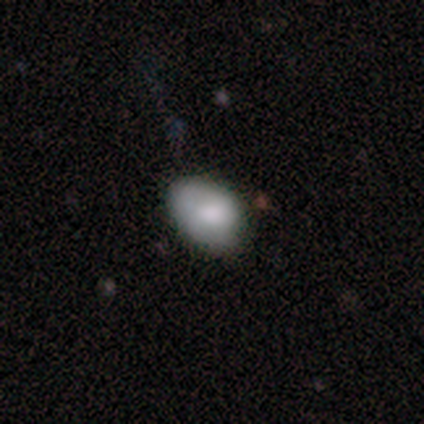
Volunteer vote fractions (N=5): This is clearly a smooth galaxy (100%). How rounded: clearly in between (80%). Merging: likely minor disturbance (60%).